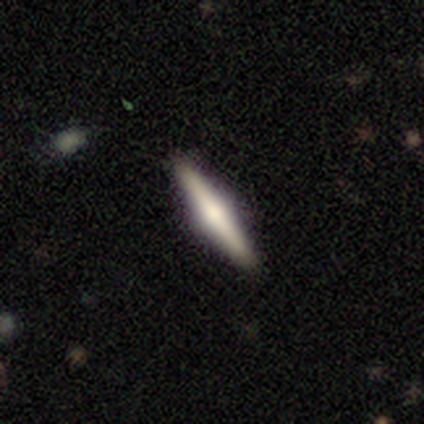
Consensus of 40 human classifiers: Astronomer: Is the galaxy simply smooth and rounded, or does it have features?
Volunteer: featured or disk — 60%.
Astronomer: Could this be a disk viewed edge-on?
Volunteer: yes — 100%.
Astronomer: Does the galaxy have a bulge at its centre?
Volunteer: rounded — 88%.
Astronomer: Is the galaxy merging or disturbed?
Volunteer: none — 97%.